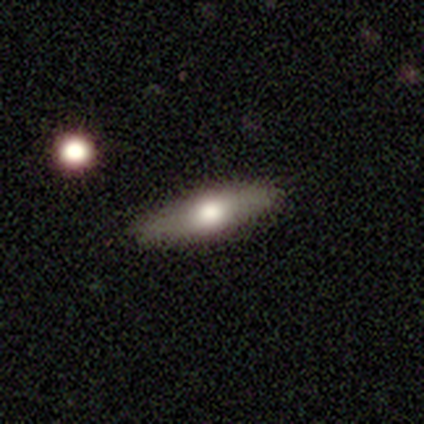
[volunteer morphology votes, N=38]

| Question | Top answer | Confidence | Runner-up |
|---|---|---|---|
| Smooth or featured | smooth | 63% | featured or disk (32%) |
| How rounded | cigar-shaped | 62% | in between (38%) |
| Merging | none | 94% | minor disturbance (6%) |